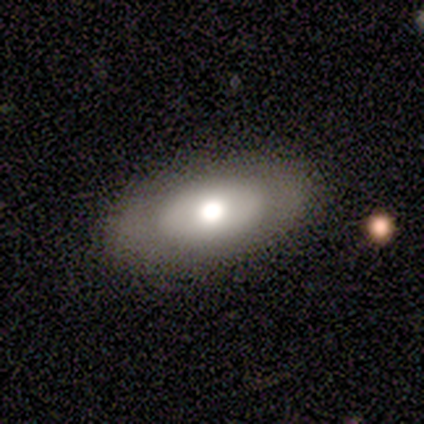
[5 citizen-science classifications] Overall: featured or disk (40%, tied with star or artifact). Edge-on disk: no (100%). Bar: weak (50%, tied with no). Spiral arms: yes (50%, tied with no). Spiral arm count: 2 (100%). Spiral winding: medium (100%). Bulge size: moderate (100%). Merging: none (100%).